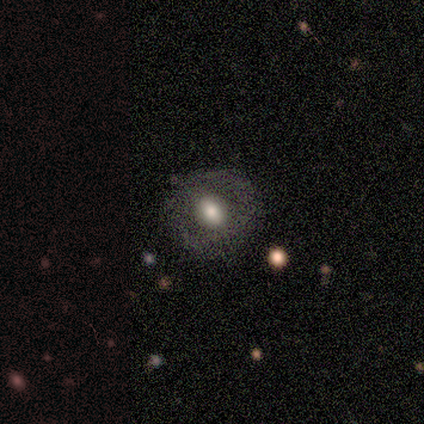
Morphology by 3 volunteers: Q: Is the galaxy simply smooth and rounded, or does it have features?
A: smooth — 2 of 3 (67%).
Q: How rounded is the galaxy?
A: round — 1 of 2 (50%, tied with in between).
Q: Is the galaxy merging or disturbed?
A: none — 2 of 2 (100%).